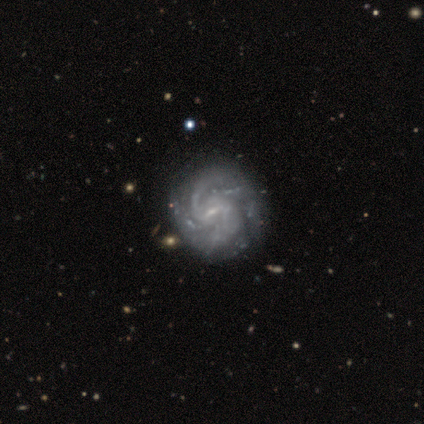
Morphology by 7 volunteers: smooth_or_featured: featured or disk (p=1.00)
disk_edge_on: no (p=1.00)
bar: weak (p=0.57) [alt: no p=0.29]
has_spiral_arms: yes (p=1.00)
spiral_winding: medium (p=0.71) [alt: tight p=0.14]
spiral_arm_count: 2 (p=0.71) [alt: 3 p=0.14]
bulge_size: small (p=0.43) [tied with: none p=0.43]
merging: none (p=0.43) [alt: minor disturbance p=0.14]